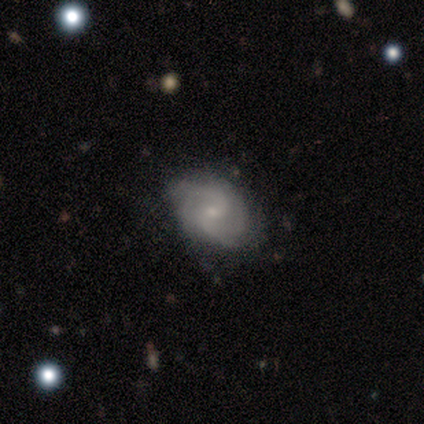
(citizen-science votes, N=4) This is likely a featured or disk galaxy (75%). It is clearly not viewed edge-on (100%). Bar: likely weak (67%). Spiral arm pattern: clearly yes (100%). Spiral arm count: clearly 2 (100%). Spiral winding: likely medium (67%). Central bulge: likely small (67%). Merging: likely none (75%).